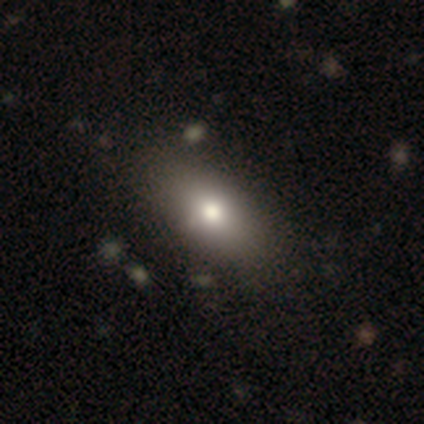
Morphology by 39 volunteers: Smooth or featured? 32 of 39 (82%) said smooth. How rounded? 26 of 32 (81%) said in between. Merging? 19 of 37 (51%) said none.